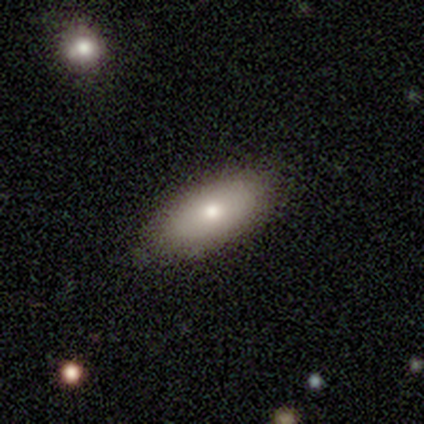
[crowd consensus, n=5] smooth_or_featured: smooth (p=0.60) [alt: featured or disk p=0.40]
how_rounded: in between (p=0.67) [alt: cigar-shaped p=0.33]
merging: none (p=0.80) [alt: minor disturbance p=0.20]